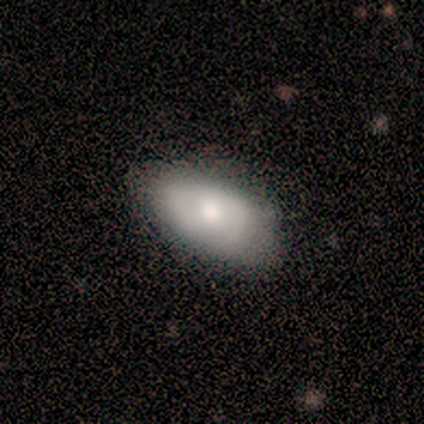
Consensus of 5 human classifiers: Q: Smooth or featured?
A: featured or disk (60%); runner-up: smooth (20%)
Q: Edge-on disk?
A: no (100%)
Q: Bar?
A: no (67%); runner-up: weak (33%)
Q: Spiral arms?
A: yes (67%); runner-up: no (33%)
Q: Spiral winding?
A: medium (100%)
Q: Spiral arm count?
A: 1 (50%); tied with: 2 (50%)
Q: Bulge size?
A: moderate (67%); runner-up: small (33%)
Q: Merging?
A: none (75%); runner-up: minor disturbance (25%)